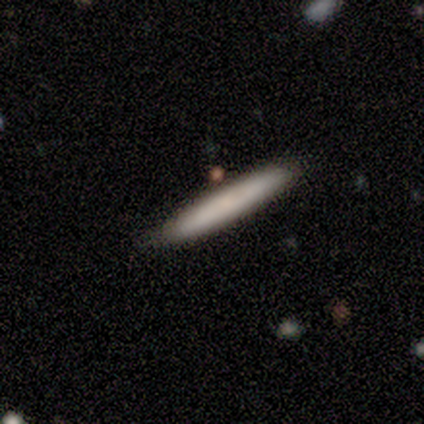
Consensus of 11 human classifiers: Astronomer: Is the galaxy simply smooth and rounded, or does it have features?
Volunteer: smooth — 73%.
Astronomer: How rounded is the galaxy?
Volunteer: cigar-shaped — 100%.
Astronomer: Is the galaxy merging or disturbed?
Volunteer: none — 90%.